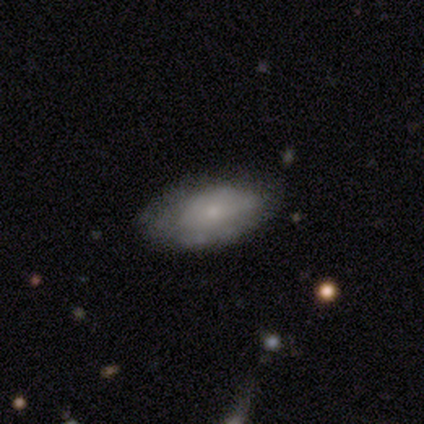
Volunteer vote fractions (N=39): Smooth or featured: smooth — 56% (featured or disk — 36%)
How rounded: in between — 95% (round — 5%)
Merging: none — 75% (minor disturbance — 22%)